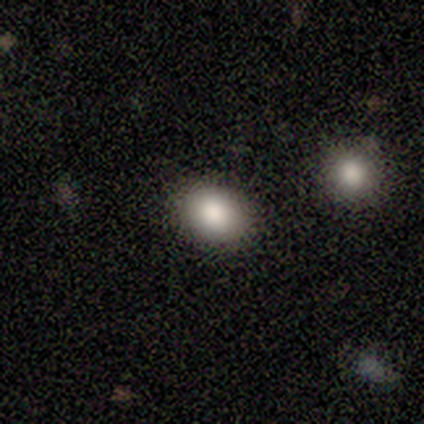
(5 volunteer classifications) smooth 100%, featured or disk 0%, star or artifact 0%. Down the decision tree: how rounded — round (60%); merging — none (60%).